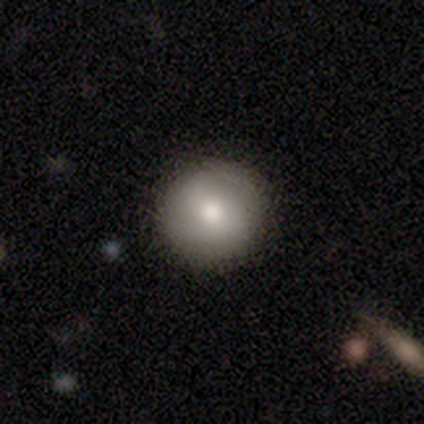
Smooth or featured?
  - smooth: 71% *
  - featured or disk: 14%
  - star or artifact: 14%
How rounded?
  - round: 100% *
  - in between: 0%
  - cigar-shaped: 0%
Merging?
  - none: 100% *
  - minor disturbance: 0%
  - major disturbance: 0%
  - merger: 0%